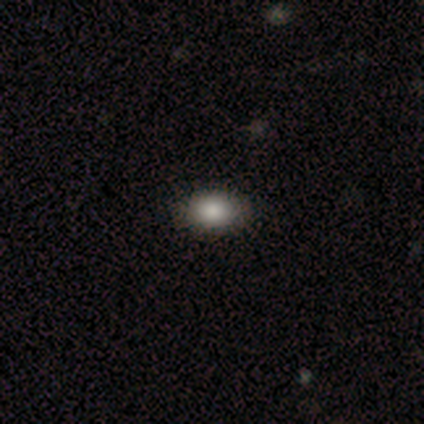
Smooth or featured?
  - smooth: 92% *
  - star or artifact: 8%
  - featured or disk: 0%
How rounded?
  - in between: 73% *
  - round: 27%
  - cigar-shaped: 0%
Merging?
  - none: 91% *
  - minor disturbance: 9%
  - major disturbance: 0%
  - merger: 0%